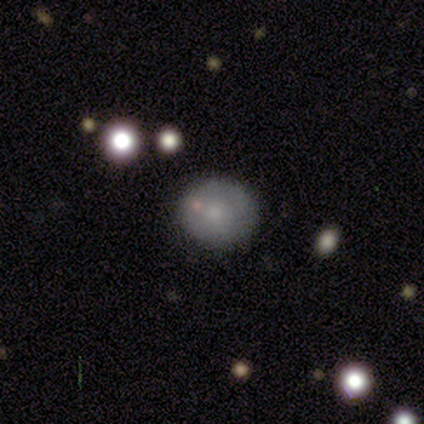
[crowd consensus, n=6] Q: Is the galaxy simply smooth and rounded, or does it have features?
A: smooth — 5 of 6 (83%).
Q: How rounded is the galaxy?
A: round — 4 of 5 (80%).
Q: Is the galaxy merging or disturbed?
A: none — 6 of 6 (100%).